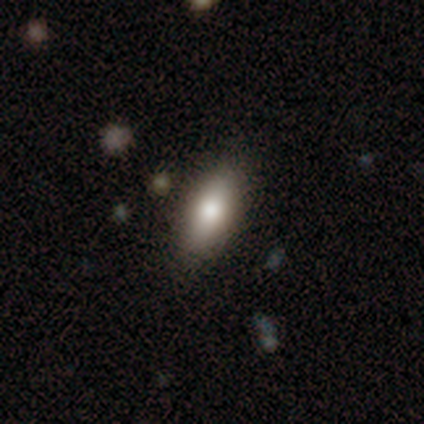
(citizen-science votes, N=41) Smooth or featured? smooth (80%)
How rounded? in between (79%)
Merging? none (78%)